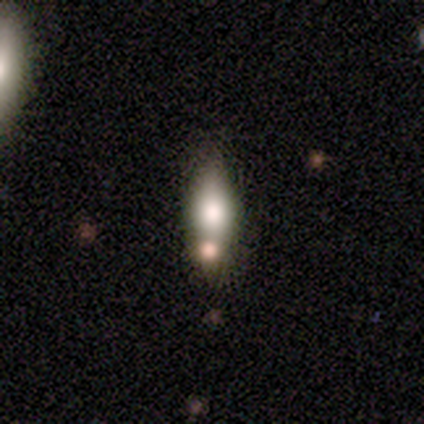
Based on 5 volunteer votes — smooth_or_featured: smooth (p=0.60) [alt: featured or disk p=0.40]
how_rounded: in between (p=1.00)
merging: none (p=0.40) [alt: minor disturbance p=0.20]